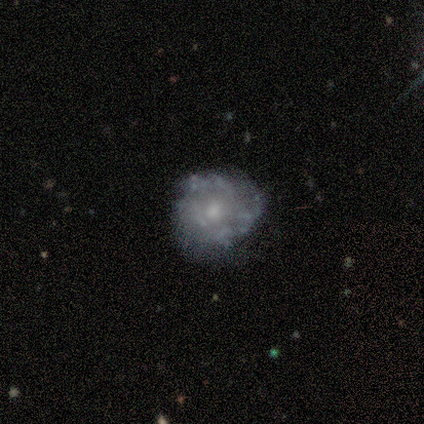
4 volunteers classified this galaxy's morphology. type=featured or disk (75%); edge-on=no (100%); bar=no (67%); spiral arms=yes (100%); winding=tight (33%, tied with medium and loose); arm count=can't tell (67%); bulge=small (67%); merging=none (50%).